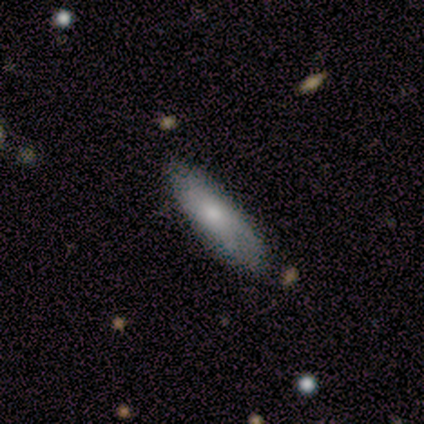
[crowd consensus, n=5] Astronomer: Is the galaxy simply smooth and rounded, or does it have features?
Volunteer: smooth — 60% (runner-up: featured or disk, 40%).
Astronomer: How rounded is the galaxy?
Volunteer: cigar-shaped — 67%.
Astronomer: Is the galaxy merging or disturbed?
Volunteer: none — 80%.